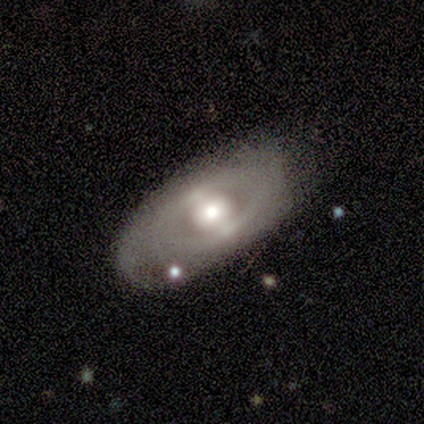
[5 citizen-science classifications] A featured or disk galaxy (80%) with a strong bar (75%), no spiral arms (75%) and a moderate central bulge (100%).

Vote fractions:
- Smooth or featured? featured or disk: 80% / smooth: 20% / star or artifact: 0%
- Edge-on disk? no: 100% / yes: 0%
- Bar? strong: 75% / no: 25% / weak: 0%
- Spiral arms? no: 75% / yes: 25%
- Bulge size? moderate: 100% / dominant: 0% / large: 0% / small: 0% / none: 0%
- Merging? none: 80% / minor disturbance: 20% / major disturbance: 0% / merger: 0%